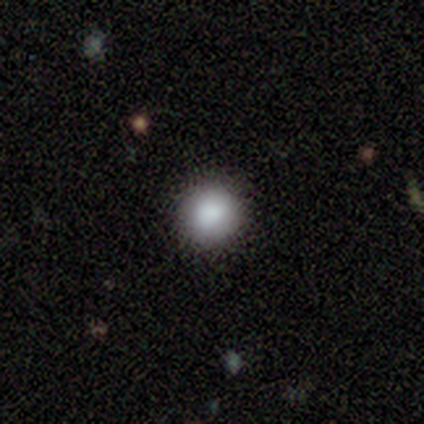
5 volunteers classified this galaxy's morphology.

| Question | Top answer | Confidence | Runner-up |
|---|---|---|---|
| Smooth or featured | smooth | 100% | — |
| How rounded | round | 100% | — |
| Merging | none | 100% | — |